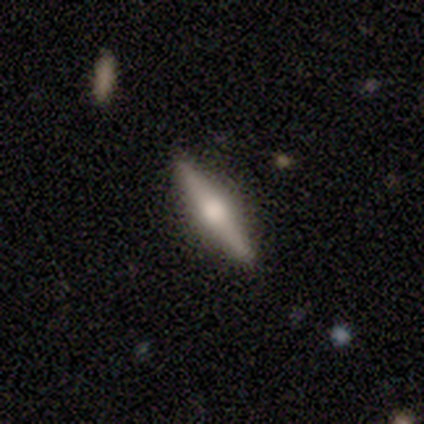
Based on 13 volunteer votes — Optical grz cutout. It shows a featured or disk galaxy (77%) viewed edge-on (100%) with a rounded central bulge (100%). Merging: none (77%).